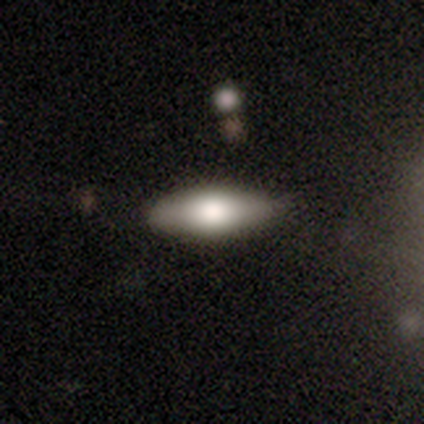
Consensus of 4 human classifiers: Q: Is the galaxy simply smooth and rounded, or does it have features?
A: smooth — 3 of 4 (75%).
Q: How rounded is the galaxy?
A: cigar-shaped — 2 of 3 (67%).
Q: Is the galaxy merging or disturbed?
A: none — 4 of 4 (100%).